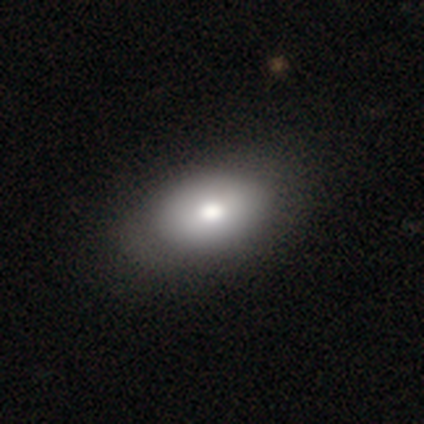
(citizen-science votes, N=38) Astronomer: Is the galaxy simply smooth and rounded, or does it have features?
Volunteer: smooth — 74%.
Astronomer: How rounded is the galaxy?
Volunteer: in between — 89%.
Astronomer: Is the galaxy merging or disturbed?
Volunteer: none — 61%.